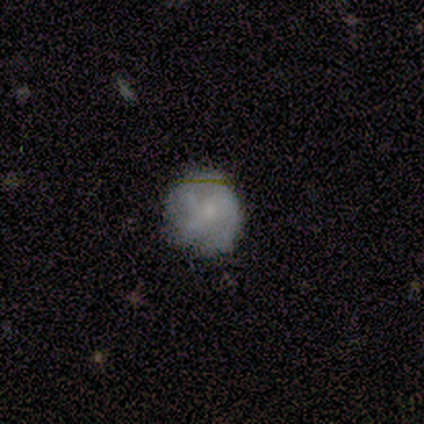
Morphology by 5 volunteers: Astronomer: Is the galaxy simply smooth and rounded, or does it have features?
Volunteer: smooth — 100%.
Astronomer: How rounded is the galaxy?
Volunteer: round — 100%.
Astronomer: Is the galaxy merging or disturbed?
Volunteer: none — 100%.